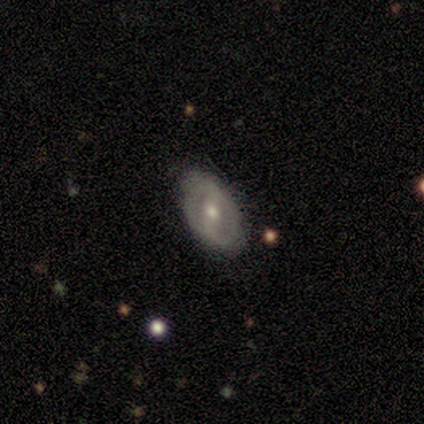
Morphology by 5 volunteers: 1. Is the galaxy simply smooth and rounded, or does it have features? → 80% featured or disk, 20% smooth, 0% star or artifact.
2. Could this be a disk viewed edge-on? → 50% yes (tied), 50% no (tied).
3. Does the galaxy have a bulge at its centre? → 50% boxy (tied), 50% rounded (tied), 0% none.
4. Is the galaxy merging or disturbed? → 80% none, 20% minor disturbance, 0% major disturbance, 0% merger.